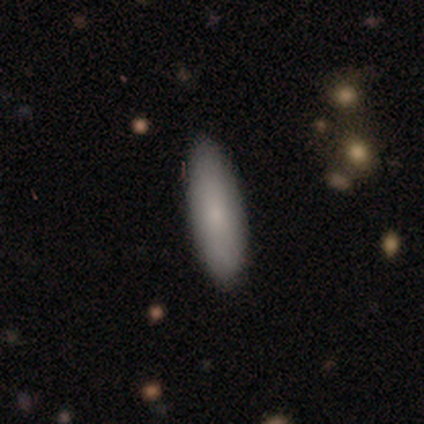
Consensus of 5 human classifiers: Smooth or featured: smooth — 60% (star or artifact — 40%)
How rounded: cigar-shaped — 67% (in between — 33%)
Merging: none — 100%